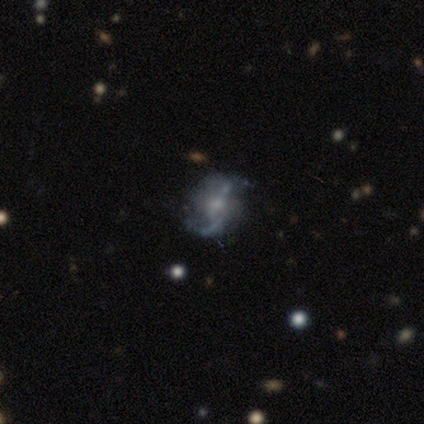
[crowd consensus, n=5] This is likely a featured or disk galaxy (60%). It is clearly not viewed edge-on (100%). Bar: likely weak (67%). Spiral arm pattern: clearly yes (100%). Spiral arm count: likely 2 (67%). Spiral winding: marginally tight (33%, tied with medium and loose). Central bulge: likely small (67%). Merging: likely none (75%).